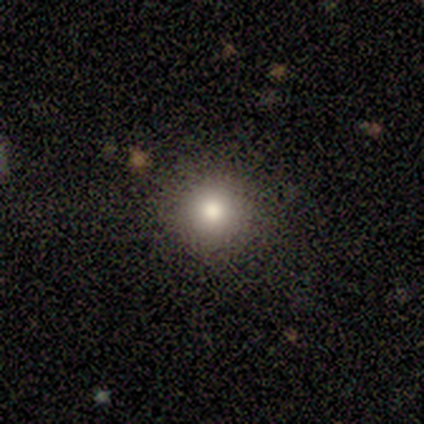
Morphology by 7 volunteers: smooth-or-featured: smooth: 100% | featured or disk: 0% | star or artifact: 0%
  how-rounded: round: 100% | in between: 0% | cigar-shaped: 0%
  merging: none: 100% | minor disturbance: 0% | major disturbance: 0% | merger: 0%